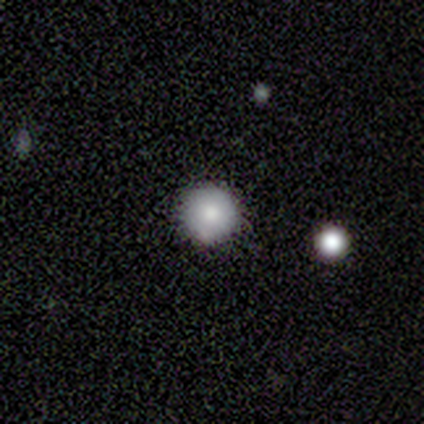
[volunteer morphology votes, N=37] smooth-or-featured: smooth: 78% | featured or disk: 14% | star or artifact: 8%
  how-rounded: round: 97% | in between: 3% | cigar-shaped: 0%
  merging: none: 91% | merger: 6% | major disturbance: 3% | minor disturbance: 0%